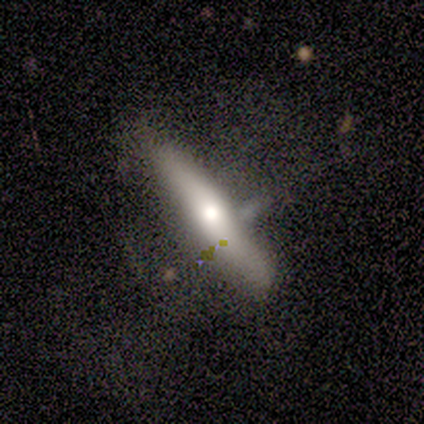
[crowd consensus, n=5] Q: Smooth or featured?
A: smooth (100%)
Q: How rounded?
A: cigar-shaped (100%)
Q: Merging?
A: minor disturbance (40%); runner-up: none (20%)